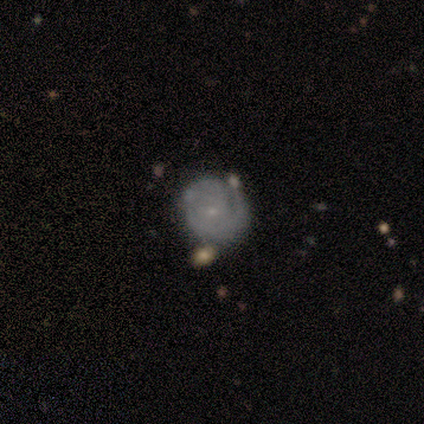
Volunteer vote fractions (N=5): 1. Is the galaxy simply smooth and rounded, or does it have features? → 80% featured or disk, 20% smooth, 0% star or artifact.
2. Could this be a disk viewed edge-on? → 100% no, 0% yes.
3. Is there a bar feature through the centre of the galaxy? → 50% strong (tied), 50% no (tied), 0% weak.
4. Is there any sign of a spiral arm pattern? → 100% yes, 0% no.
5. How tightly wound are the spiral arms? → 100% tight, 0% medium, 0% loose.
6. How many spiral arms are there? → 50% 2, 25% 1, 25% can't tell, 0% 3, 0% 4, 0% more than 4.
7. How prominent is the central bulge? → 75% small, 25% moderate, 0% dominant, 0% large, 0% none.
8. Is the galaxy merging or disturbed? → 80% none, 20% minor disturbance, 0% major disturbance, 0% merger.